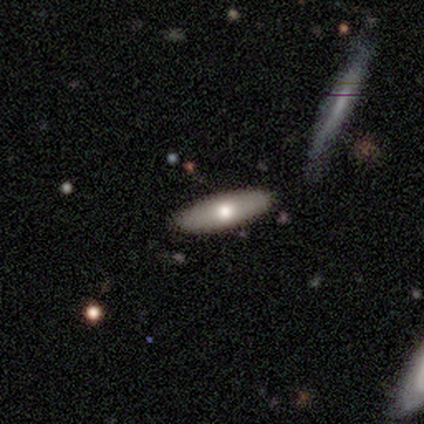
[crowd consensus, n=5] smooth_or_featured: featured or disk (p=0.60) [alt: smooth p=0.40]
disk_edge_on: yes (p=0.67) [alt: no p=0.33]
edge_on_bulge: rounded (p=1.00)
merging: none (p=1.00)